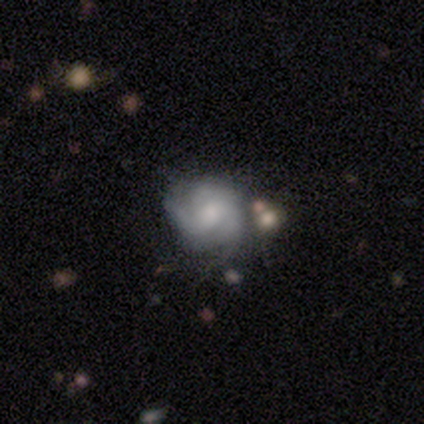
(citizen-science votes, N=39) Morphology: type=featured or disk (77%); edge-on=no (97%); bar=no (55%); spiral arms=yes (90%); winding=tight (50%); arm count=3 (42%); bulge=moderate (41%); merging=none (50%).